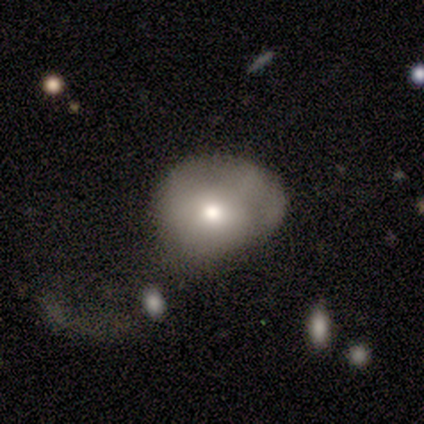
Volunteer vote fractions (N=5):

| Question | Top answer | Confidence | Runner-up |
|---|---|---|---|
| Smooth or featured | smooth | 100% | — |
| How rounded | in between | 80% | round (20%) |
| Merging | minor disturbance | 40% | tied: major disturbance (40%) |